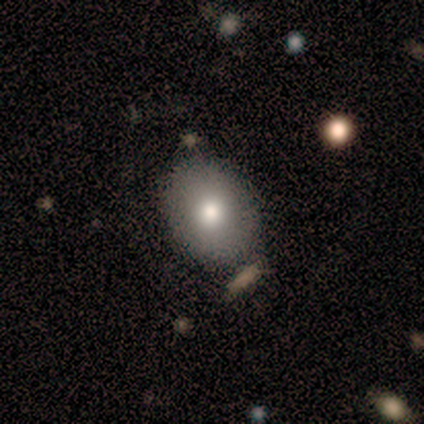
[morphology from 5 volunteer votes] smooth 100%, featured or disk 0%, star or artifact 0%. Down the decision tree: how rounded — in between (100%); merging — none (100%).